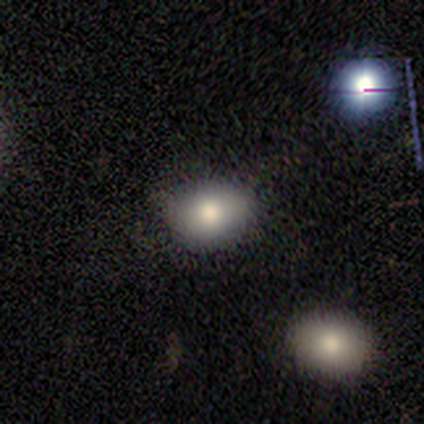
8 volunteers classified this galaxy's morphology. Smooth or featured?
  - smooth: 100% *
  - featured or disk: 0%
  - star or artifact: 0%
How rounded?
  - in between: 75% *
  - round: 25%
  - cigar-shaped: 0%
Merging?
  - none: 75% *
  - minor disturbance: 25%
  - major disturbance: 0%
  - merger: 0%